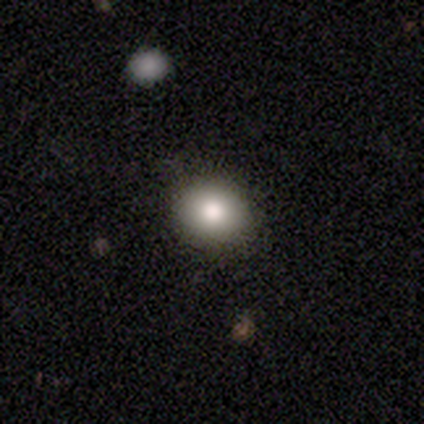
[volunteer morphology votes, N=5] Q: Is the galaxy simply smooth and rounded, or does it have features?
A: smooth — 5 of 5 (100%).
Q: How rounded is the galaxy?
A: round — 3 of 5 (60%).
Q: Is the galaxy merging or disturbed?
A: none — 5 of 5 (100%).